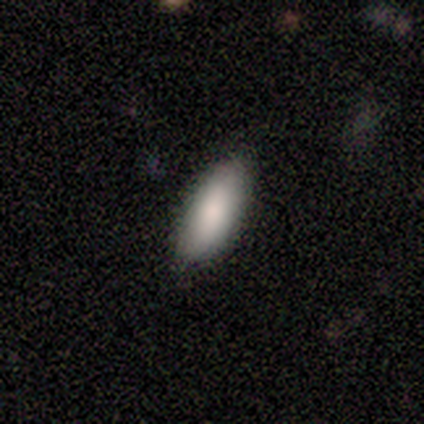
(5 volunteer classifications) Smooth or featured?
  - smooth: 100% *
  - featured or disk: 0%
  - star or artifact: 0%
How rounded?
  - in between: 80% *
  - cigar-shaped: 20%
  - round: 0%
Merging?
  - none: 100% *
  - minor disturbance: 0%
  - major disturbance: 0%
  - merger: 0%